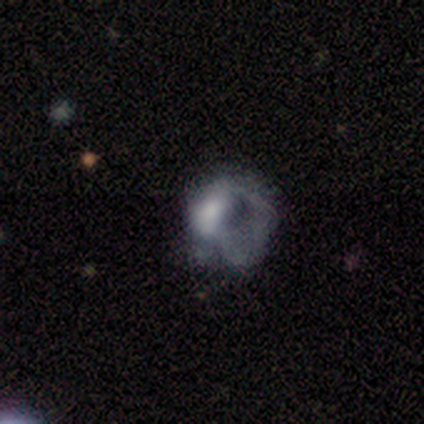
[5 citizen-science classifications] Smooth or featured? featured or disk (60%)
Edge-on disk? no (100%)
Bar? no (67%)
Spiral arms? no (67%)
Bulge size? large (67%)
Merging? major disturbance (75%)